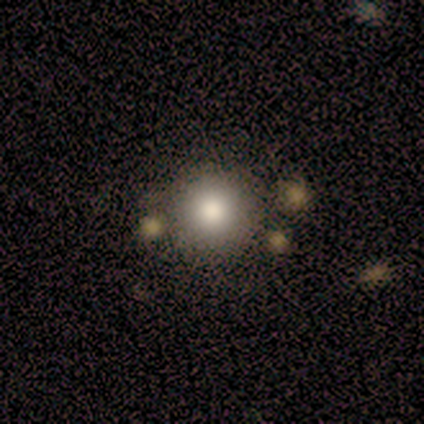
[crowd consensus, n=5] Q: Smooth or featured?
A: smooth (80%); runner-up: featured or disk (20%)
Q: How rounded?
A: round (100%)
Q: Merging?
A: none (60%); runner-up: minor disturbance (20%)